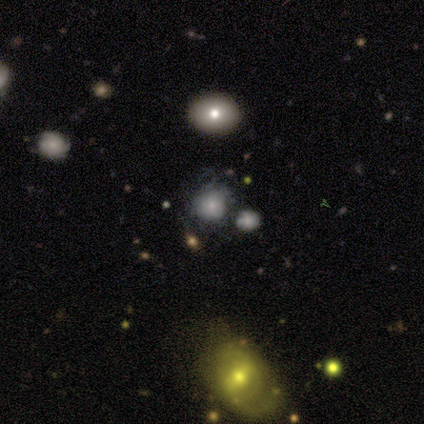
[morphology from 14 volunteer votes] smooth_or_featured: featured or disk (p=0.50) [alt: smooth p=0.36]
disk_edge_on: no (p=1.00)
bar: no (p=0.57) [alt: weak p=0.29]
has_spiral_arms: no (p=0.71) [alt: yes p=0.29]
bulge_size: small (p=0.57) [alt: moderate p=0.29]
merging: none (p=0.67) [alt: minor disturbance p=0.17]